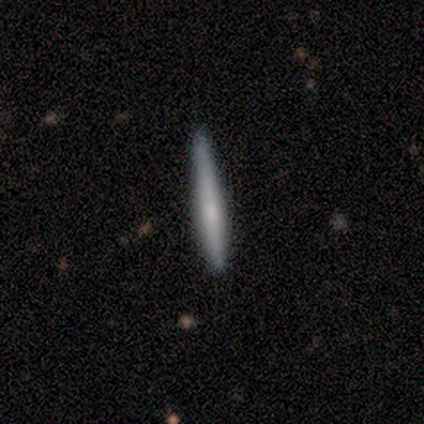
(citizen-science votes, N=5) This is likely a smooth galaxy (60%). How rounded: clearly cigar-shaped (100%). Merging: likely none (60%).